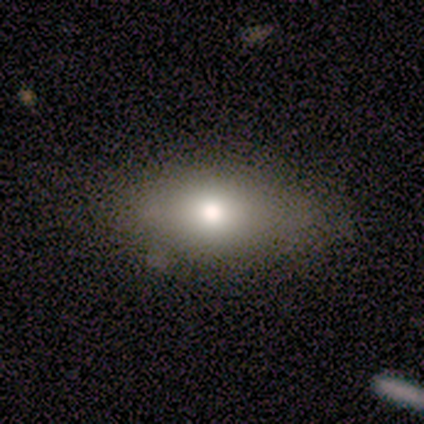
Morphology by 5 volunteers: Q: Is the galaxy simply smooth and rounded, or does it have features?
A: smooth — 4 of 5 (80%).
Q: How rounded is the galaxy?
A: in between — 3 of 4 (75%).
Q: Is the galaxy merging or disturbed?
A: none — 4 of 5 (80%).